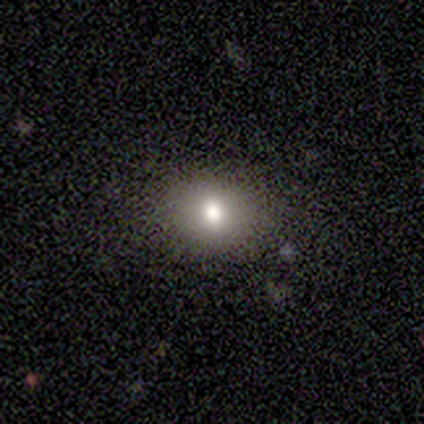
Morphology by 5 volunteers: smooth-or-featured: smooth: 80% | featured or disk: 20% | star or artifact: 0%
  how-rounded: round: 50% (tied) | in between: 50% (tied) | cigar-shaped: 0%
  merging: none: 80% | minor disturbance: 20% | major disturbance: 0% | merger: 0%